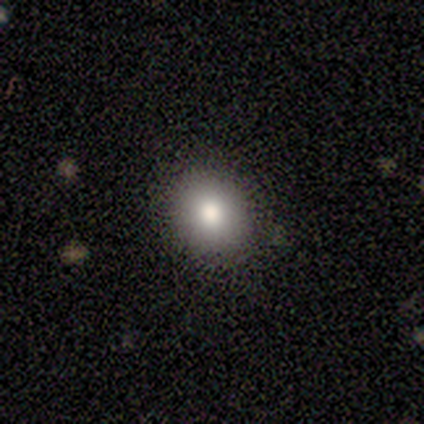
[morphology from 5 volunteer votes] This appears to be a smooth galaxy with no disk features (60%) that is round (100%). Merging: none (75%).